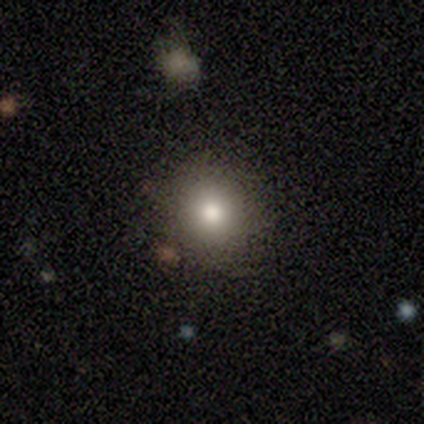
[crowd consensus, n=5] Morphology: type=smooth (80%); roundness=round (75%); merging=none (100%).